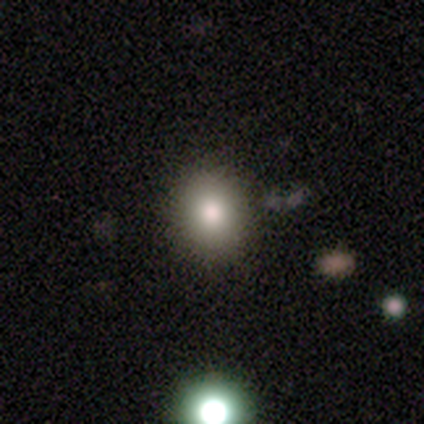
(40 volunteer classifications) Smooth or featured?
  - smooth: 75% *
  - star or artifact: 18%
  - featured or disk: 8%
How rounded?
  - round: 93% *
  - in between: 7%
  - cigar-shaped: 0%
Merging?
  - none: 88% *
  - minor disturbance: 6%
  - merger: 6%
  - major disturbance: 0%